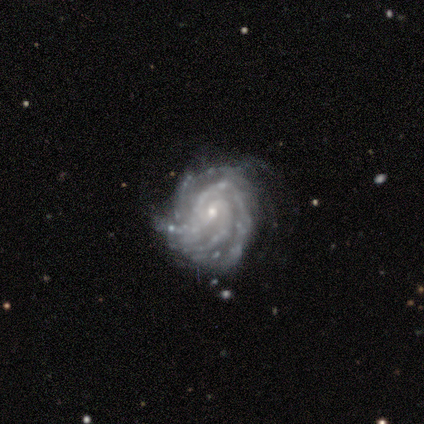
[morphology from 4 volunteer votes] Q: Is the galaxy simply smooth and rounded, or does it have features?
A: featured or disk — 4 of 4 (100%).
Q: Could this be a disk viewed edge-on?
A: no — 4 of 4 (100%).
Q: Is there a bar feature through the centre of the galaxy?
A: weak — 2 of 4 (50%, tied with no).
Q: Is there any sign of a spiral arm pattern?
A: yes — 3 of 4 (75%).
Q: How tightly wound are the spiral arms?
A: tight — 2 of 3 (67%).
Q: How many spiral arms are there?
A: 3 — 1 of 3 (33%, tied with more than 4 and can't tell).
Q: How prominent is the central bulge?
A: small — 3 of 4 (75%).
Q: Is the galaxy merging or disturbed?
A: none — 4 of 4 (100%).